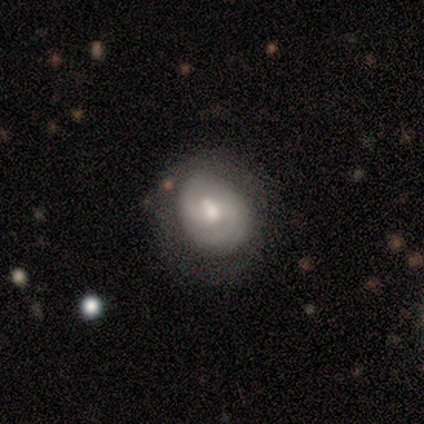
featured or disk 78%, smooth 11%, star or artifact 11%. Down the decision tree: edge-on disk — no (100%); bar — no (43%); spiral arms — yes (100%); spiral arm count — 2 (86%); spiral winding — tight (57%); bulge size — moderate (43%, tied with small); merging — none (75%).